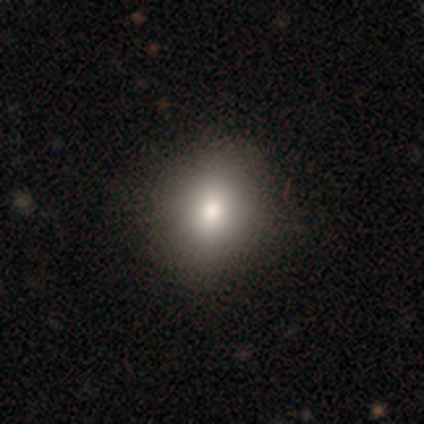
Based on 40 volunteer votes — Overall: smooth (78%). How rounded: in between (65%; round 35%). Merging: none (71%).